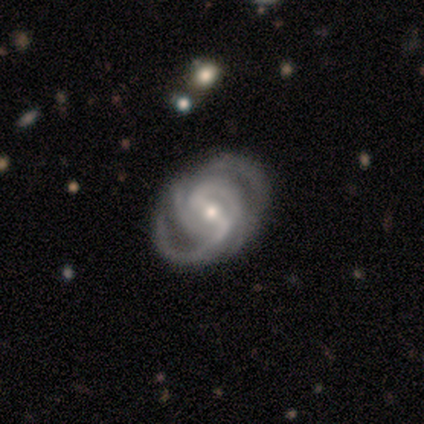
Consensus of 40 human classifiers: smooth-or-featured: featured or disk: 98% | smooth: 2% | star or artifact: 0%
  disk-edge-on: no: 97% | yes: 3%
    bar: strong: 58% | weak: 32% | no: 11%
    has-spiral-arms: yes: 97% | no: 3%
      spiral-winding: tight: 54% | medium: 38% | loose: 8%
      spiral-arm-count: 4: 38% | 2: 24% | 3: 22% | can't tell: 14% | more than 4: 3% | 1: 0%
    bulge-size: small: 50% | moderate: 45% | large: 5% | dominant: 0% | none: 0%
  merging: none: 52% | major disturbance: 12% | minor disturbance: 8% | merger: 2%